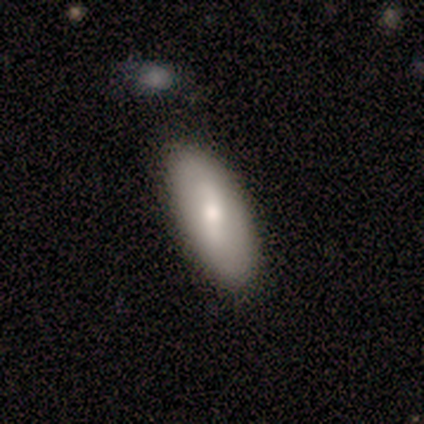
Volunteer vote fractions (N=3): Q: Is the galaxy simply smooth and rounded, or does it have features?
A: smooth — 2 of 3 (67%).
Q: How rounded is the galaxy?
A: in between — 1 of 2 (50%, tied with cigar-shaped).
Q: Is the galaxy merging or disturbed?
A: none — 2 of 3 (67%).